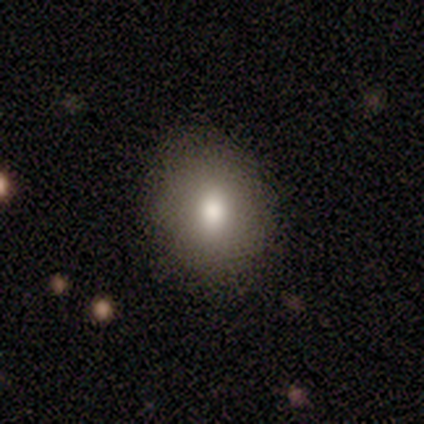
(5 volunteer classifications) smooth_or_featured: smooth (p=0.80) [alt: featured or disk p=0.20]
how_rounded: round (p=0.75) [alt: in between p=0.25]
merging: none (p=1.00)